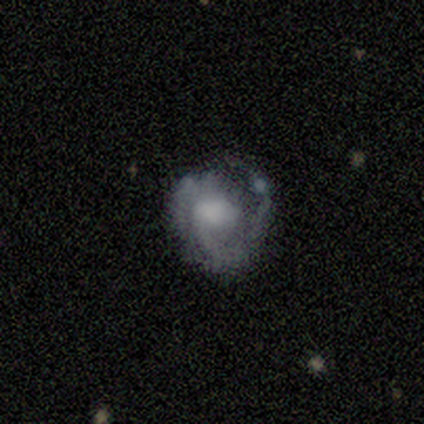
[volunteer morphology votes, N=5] A featured or disk galaxy (80%) with no bar (100%), 1 (50%, tied with 2) tight (50%, tied with medium) spiral arms (100%) and no central bulge (50%). Merging: none (50%).